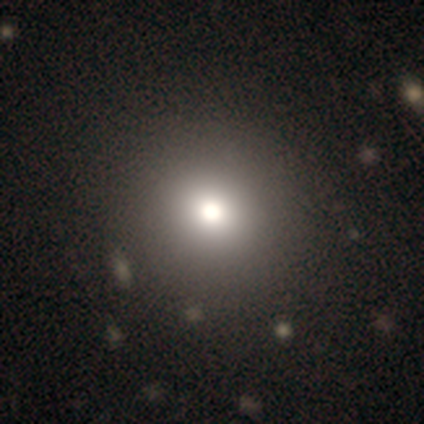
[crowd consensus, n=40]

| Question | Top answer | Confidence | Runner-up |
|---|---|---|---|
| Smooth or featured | smooth | 80% | featured or disk (12%) |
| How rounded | round | 94% | in between (6%) |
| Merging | none | 78% | merger (5%) |